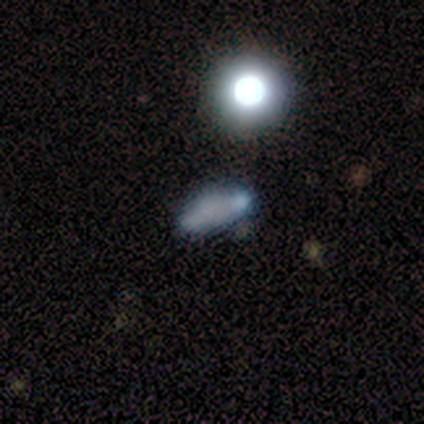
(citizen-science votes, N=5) A smooth galaxy with no disk features (60%) that is round (33%, tied with in between and cigar-shaped).

Vote fractions:
- Smooth or featured? smooth: 60% / featured or disk: 40% / star or artifact: 0%
- How rounded? round: 33% (tied) / in between: 33% (tied) / cigar-shaped: 33% (tied)
- Merging? none: 60% / minor disturbance: 20% / major disturbance: 20% / merger: 0%